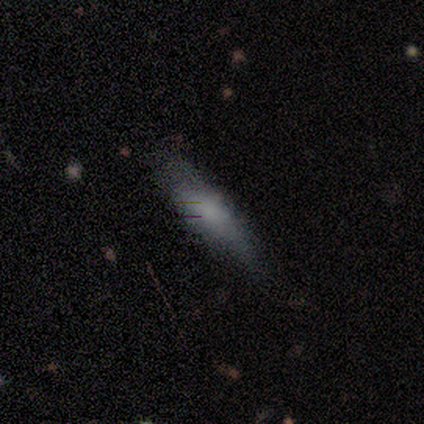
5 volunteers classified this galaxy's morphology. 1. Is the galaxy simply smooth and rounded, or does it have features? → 60% smooth, 20% featured or disk, 20% star or artifact.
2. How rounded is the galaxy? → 67% in between, 33% cigar-shaped, 0% round.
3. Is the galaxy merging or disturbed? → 75% none, 25% major disturbance, 0% minor disturbance, 0% merger.